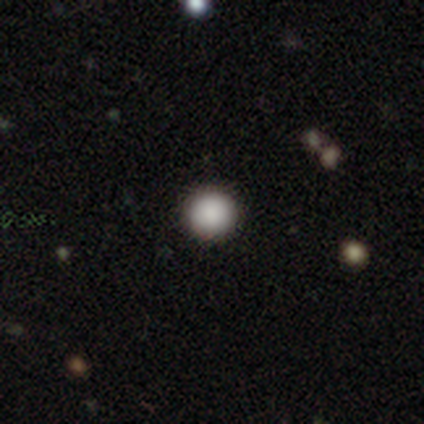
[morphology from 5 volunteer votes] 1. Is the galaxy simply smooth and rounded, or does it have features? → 80% smooth, 20% star or artifact, 0% featured or disk.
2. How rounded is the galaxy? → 100% round, 0% in between, 0% cigar-shaped.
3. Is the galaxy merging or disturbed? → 100% none, 0% minor disturbance, 0% major disturbance, 0% merger.